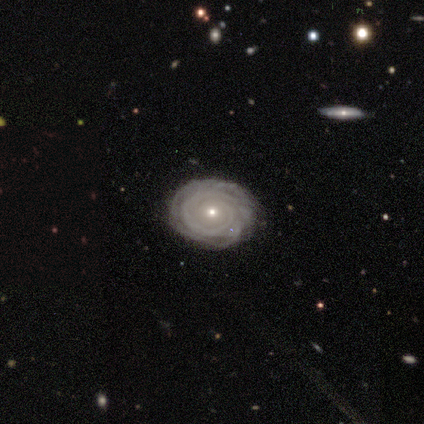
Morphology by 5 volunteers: A featured or disk galaxy (100%) with no bar (100%), 1 (40%) tight (80%) spiral arms (100%) and a small central bulge (100%).

Vote fractions:
- Smooth or featured? featured or disk: 100% / smooth: 0% / star or artifact: 0%
- Edge-on disk? no: 100% / yes: 0%
- Bar? no: 100% / strong: 0% / weak: 0%
- Spiral arms? yes: 100% / no: 0%
- Spiral winding? tight: 80% / medium: 20% / loose: 0%
- Spiral arm count? 1: 40% / 2: 20% / 3: 20% / can't tell: 20% / 4: 0% / more than 4: 0%
- Bulge size? small: 100% / dominant: 0% / large: 0% / moderate: 0% / none: 0%
- Merging? none: 80% / major disturbance: 20% / minor disturbance: 0% / merger: 0%